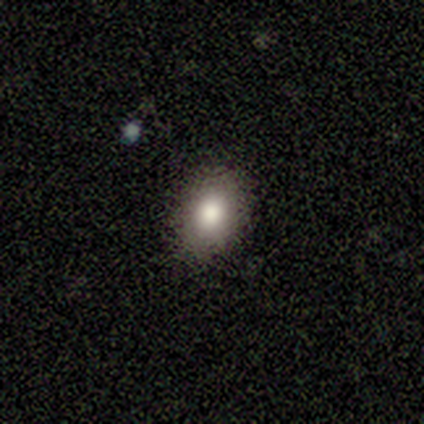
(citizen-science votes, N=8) Q: Smooth or featured?
A: smooth (88%); runner-up: star or artifact (12%)
Q: How rounded?
A: round (71%); runner-up: in between (29%)
Q: Merging?
A: none (86%); runner-up: major disturbance (14%)